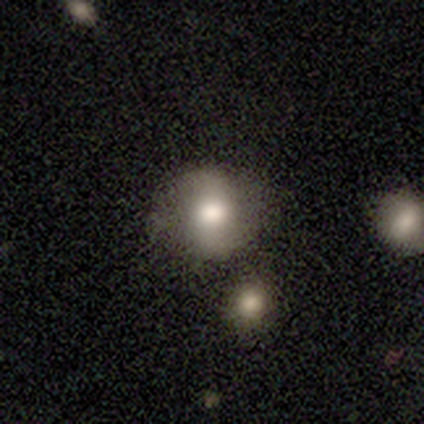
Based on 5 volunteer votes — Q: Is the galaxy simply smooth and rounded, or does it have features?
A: smooth — 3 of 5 (60%).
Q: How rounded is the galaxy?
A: round — 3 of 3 (100%).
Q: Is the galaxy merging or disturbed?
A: none — 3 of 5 (60%).